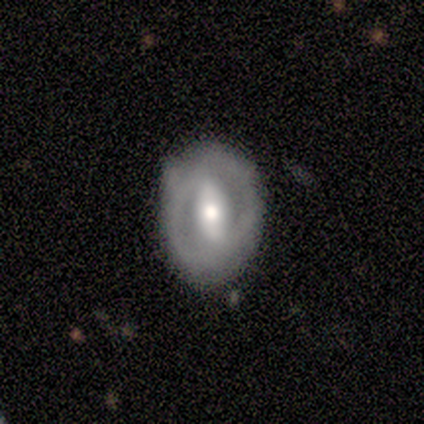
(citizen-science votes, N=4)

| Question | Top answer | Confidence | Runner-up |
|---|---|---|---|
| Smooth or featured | featured or disk | 50% | smooth (25%) |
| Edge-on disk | no | 100% | — |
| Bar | strong | 50% | tied: weak (50%) |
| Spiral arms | yes | 50% | tied: no (50%) |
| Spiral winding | medium | 100% | — |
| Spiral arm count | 2 | 100% | — |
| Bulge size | moderate | 100% | — |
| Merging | none | 67% | minor disturbance (33%) |